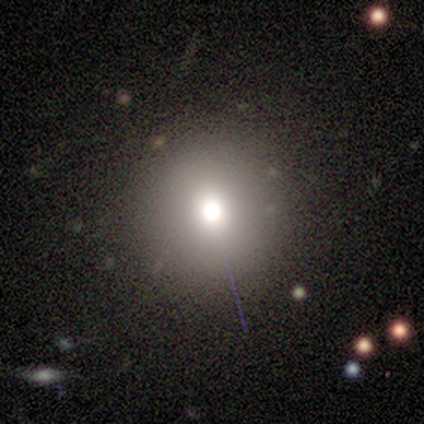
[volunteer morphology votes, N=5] A star or artifact, not a galaxy (60%).

Vote fractions:
- Smooth or featured? star or artifact: 60% / smooth: 40% / featured or disk: 0%